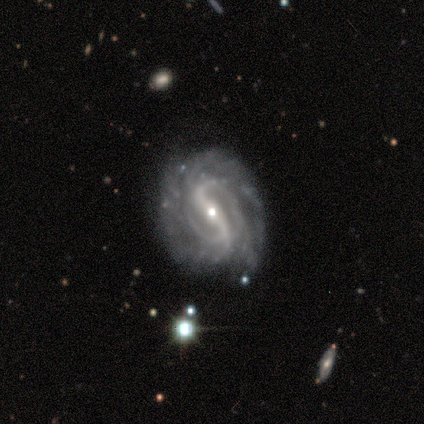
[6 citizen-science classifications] smooth-or-featured: featured or disk: 100% | smooth: 0% | star or artifact: 0%
  disk-edge-on: no: 100% | yes: 0%
    bar: strong: 83% | weak: 17% | no: 0%
    has-spiral-arms: yes: 100% | no: 0%
      spiral-winding: tight: 67% | medium: 33% | loose: 0%
      spiral-arm-count: 2: 67% | 3: 17% | more than 4: 17% | 1: 0% | 4: 0% | can't tell: 0%
    bulge-size: moderate: 67% | small: 33% | dominant: 0% | large: 0% | none: 0%
  merging: none: 83% | minor disturbance: 17% | major disturbance: 0% | merger: 0%